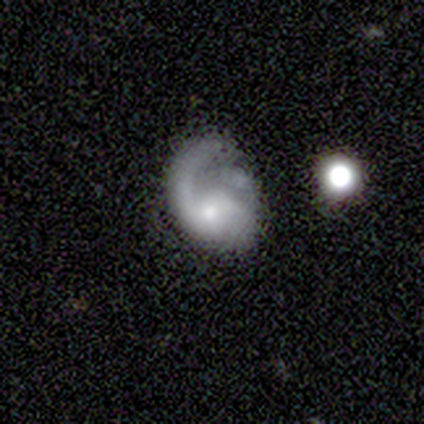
Q: Smooth or featured?
A: featured or disk (67%); runner-up: smooth (22%)
Q: Edge-on disk?
A: no (100%)
Q: Bar?
A: no (100%)
Q: Spiral arms?
A: yes (100%)
Q: Spiral winding?
A: loose (50%); runner-up: tight (33%)
Q: Spiral arm count?
A: 1 (67%); runner-up: 2 (17%)
Q: Bulge size?
A: small (67%); runner-up: moderate (33%)
Q: Merging?
A: none (62%); runner-up: major disturbance (25%)